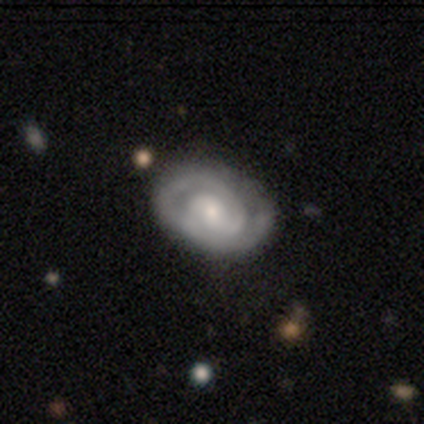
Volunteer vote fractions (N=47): Smooth or featured? featured or disk (72%)
Edge-on disk? no (100%)
Bar? no (79%)
Spiral arms? yes (91%)
Spiral winding? tight (84%)
Spiral arm count? 2 (52%)
Bulge size? small (53%)
Merging? none (73%)